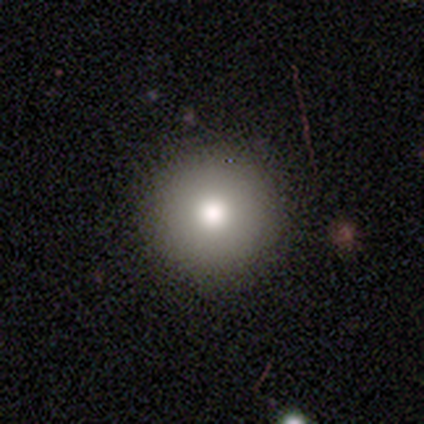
Smooth or featured: smooth — 100%
How rounded: round — 100%
Merging: none — 50% (tied with minor disturbance — 50%)